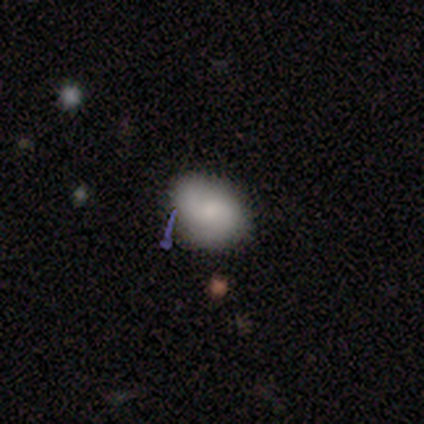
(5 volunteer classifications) Smooth or featured: smooth — 80% (star or artifact — 20%)
How rounded: in between — 100%
Merging: none — 75% (minor disturbance — 25%)